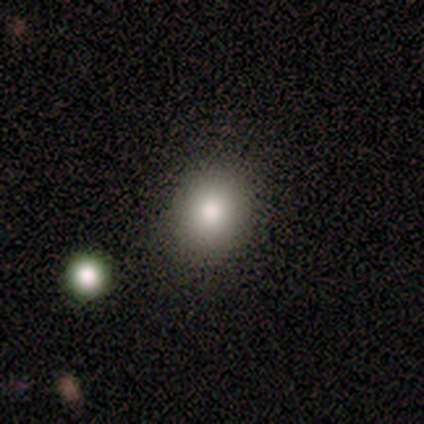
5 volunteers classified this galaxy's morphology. smooth_or_featured: smooth (p=0.80) [alt: star or artifact p=0.20]
how_rounded: round (p=0.75) [alt: in between p=0.25]
merging: none (p=0.75) [alt: minor disturbance p=0.25]